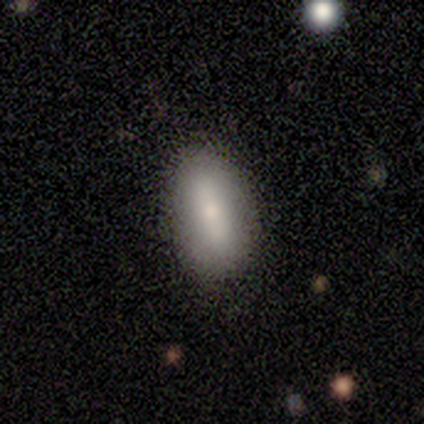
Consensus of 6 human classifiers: Volunteers were most divided on "smooth or featured": smooth: 83%, star or artifact: 17%, featured or disk: 0%. More confident: how rounded — in between (100%); merging — none (100%).